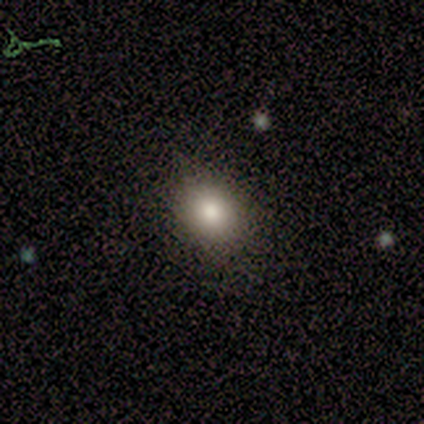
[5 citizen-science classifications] This is clearly a smooth galaxy (80%). How rounded: likely in between (75%). Merging: clearly none (80%).